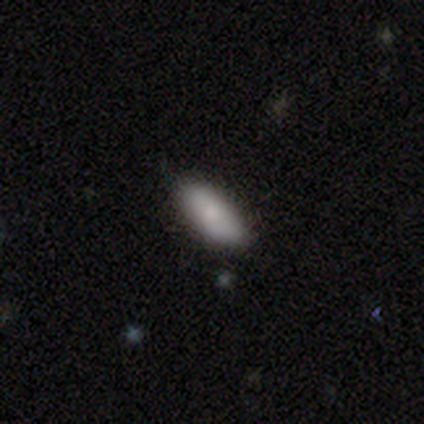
smooth_or_featured: smooth (p=0.80) [alt: featured or disk p=0.20]
how_rounded: in between (p=0.75) [alt: cigar-shaped p=0.25]
merging: none (p=1.00)